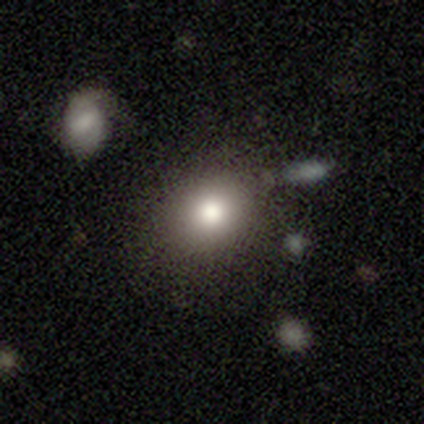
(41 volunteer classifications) A smooth galaxy with no disk features (76%) that is round (81%). Merging: none (89%).